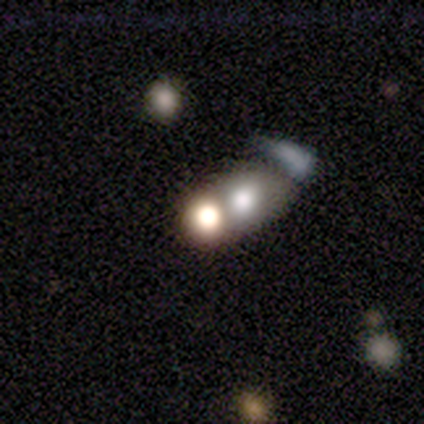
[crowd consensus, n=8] A smooth galaxy with no disk features (50%) that is in between round and cigar-shaped (75%).

Vote fractions:
- Smooth or featured? smooth: 50% / featured or disk: 25% / star or artifact: 25%
- How rounded? in between: 75% / round: 25% / cigar-shaped: 0%
- Merging? merger: 83% / minor disturbance: 17% / none: 0% / major disturbance: 0%